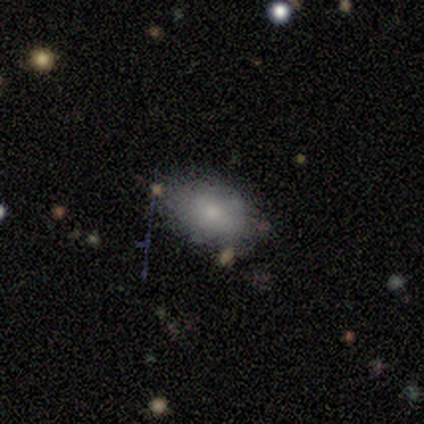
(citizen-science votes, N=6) Smooth or featured?
  - smooth: 83% *
  - featured or disk: 17%
  - star or artifact: 0%
How rounded?
  - in between: 100% *
  - round: 0%
  - cigar-shaped: 0%
Merging?
  - none: 50% * (tied)
  - minor disturbance: 50% * (tied)
  - major disturbance: 0%
  - merger: 0%